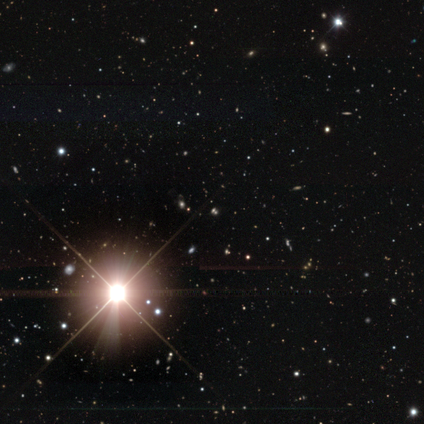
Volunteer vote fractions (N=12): This appears to be a star or artifact, not a galaxy (100%).